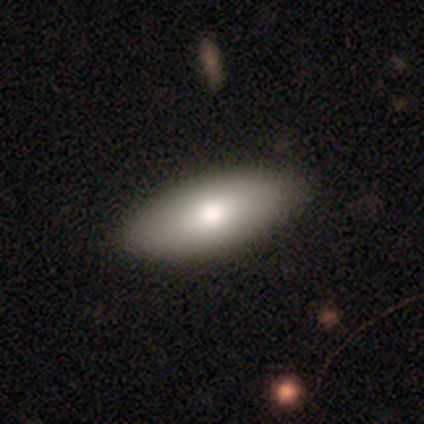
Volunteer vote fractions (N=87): Smooth or featured: smooth — 80% (featured or disk — 14%)
How rounded: in between — 83% (cigar-shaped — 14%)
Merging: none — 90% (minor disturbance — 9%)